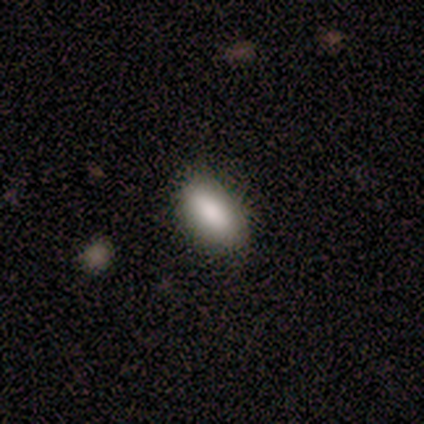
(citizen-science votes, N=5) smooth-or-featured: smooth: 80% | star or artifact: 20% | featured or disk: 0%
  how-rounded: in between: 100% | round: 0% | cigar-shaped: 0%
  merging: none: 50% | minor disturbance: 25% | major disturbance: 25% | merger: 0%